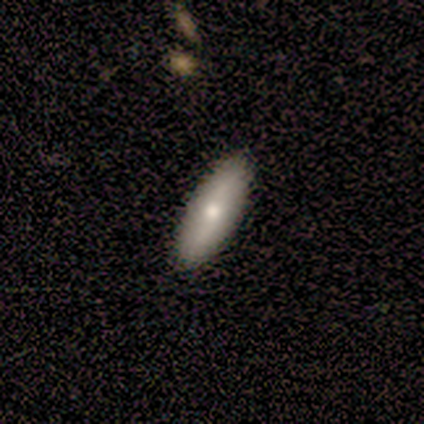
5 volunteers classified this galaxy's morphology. Overall: featured or disk (60%; smooth 40%). Edge-on disk: yes (67%; no 33%). Edge-on bulge: rounded (100%). Merging: none (100%).